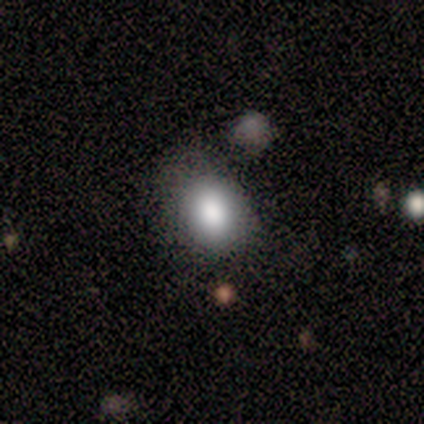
This appears to be a smooth galaxy with no disk features (72%) that is in between round and cigar-shaped (68%). Merging: none (52%).